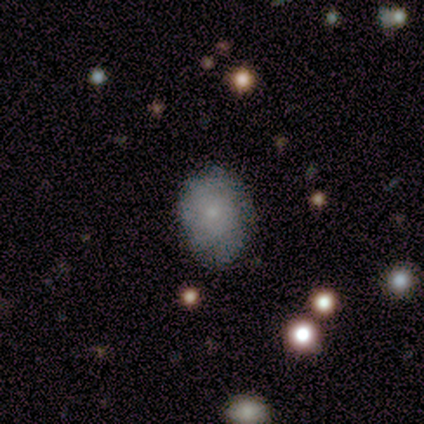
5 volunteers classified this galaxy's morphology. Q: Smooth or featured?
A: featured or disk (60%); runner-up: smooth (40%)
Q: Edge-on disk?
A: no (100%)
Q: Bar?
A: no (100%)
Q: Spiral arms?
A: yes (100%)
Q: Spiral winding?
A: tight (100%)
Q: Spiral arm count?
A: can't tell (67%); runner-up: more than 4 (33%)
Q: Bulge size?
A: small (67%); runner-up: moderate (33%)
Q: Merging?
A: minor disturbance (80%); runner-up: none (20%)